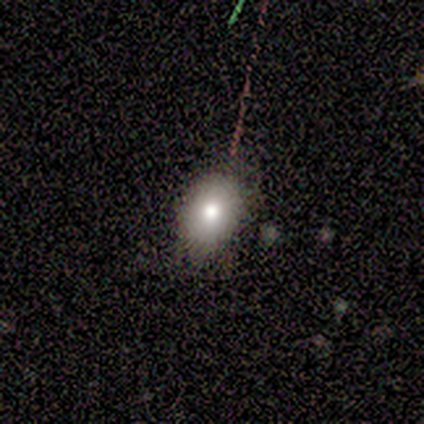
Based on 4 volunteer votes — Smooth or featured? 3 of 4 (75%) said smooth. How rounded? 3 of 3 (100%) said in between. Merging? 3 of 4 (75%) said none.